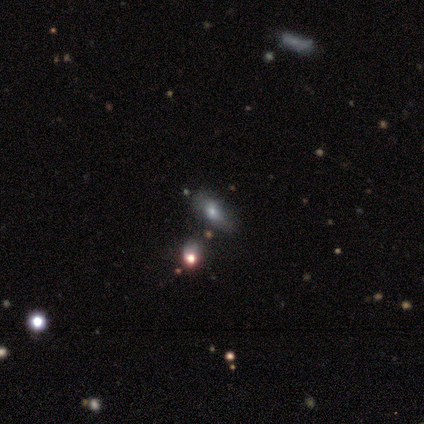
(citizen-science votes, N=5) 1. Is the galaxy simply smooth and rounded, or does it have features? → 80% smooth, 20% star or artifact, 0% featured or disk.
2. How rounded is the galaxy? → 75% in between, 25% cigar-shaped, 0% round.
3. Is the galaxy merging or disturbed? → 100% none, 0% minor disturbance, 0% major disturbance, 0% merger.